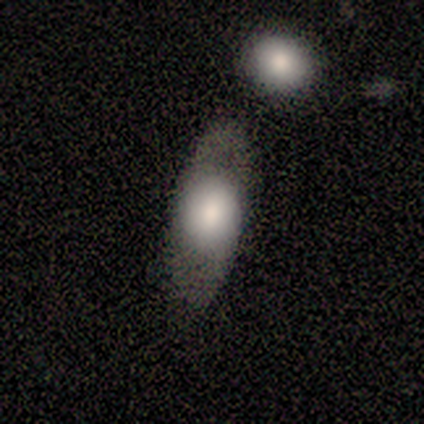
This is likely a smooth galaxy (60%). How rounded: marginally round (33%, tied with in between and cigar-shaped). Merging: likely none (60%).